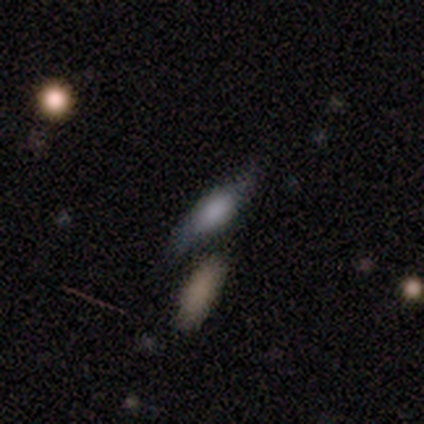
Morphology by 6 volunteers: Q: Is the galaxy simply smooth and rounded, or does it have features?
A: smooth — 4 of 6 (67%).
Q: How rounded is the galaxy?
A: in between — 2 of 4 (50%, tied with cigar-shaped).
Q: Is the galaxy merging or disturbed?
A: none — 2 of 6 (33%, tied with minor disturbance).